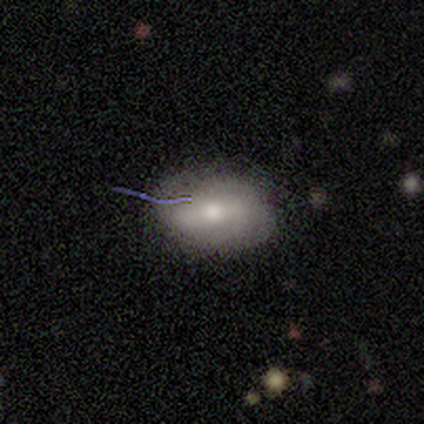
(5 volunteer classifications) A smooth galaxy with no disk features (80%) that is in between round and cigar-shaped (100%).

Vote fractions:
- Smooth or featured? smooth: 80% / featured or disk: 20% / star or artifact: 0%
- How rounded? in between: 100% / round: 0% / cigar-shaped: 0%
- Merging? none: 80% / minor disturbance: 20% / major disturbance: 0% / merger: 0%